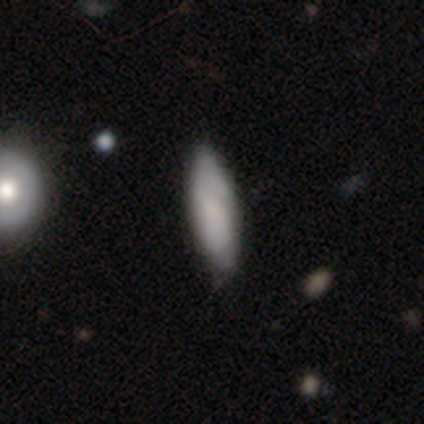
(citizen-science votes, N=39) smooth-or-featured: smooth: 72% | featured or disk: 23% | star or artifact: 5%
  how-rounded: in between: 54% | cigar-shaped: 46% | round: 0%
  merging: none: 59% | minor disturbance: 3% | major disturbance: 3% | merger: 0%